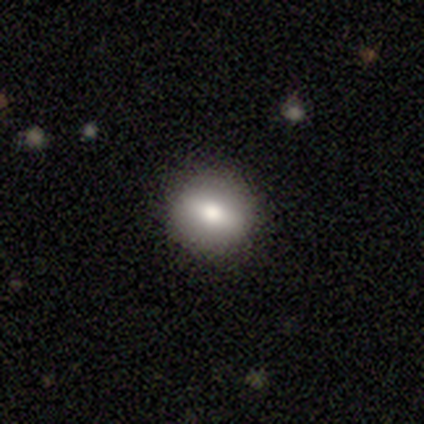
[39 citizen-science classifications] smooth_or_featured: smooth (p=0.79) [alt: featured or disk p=0.15]
how_rounded: round (p=0.74) [alt: in between p=0.23]
merging: none (p=0.89) [alt: minor disturbance p=0.08]